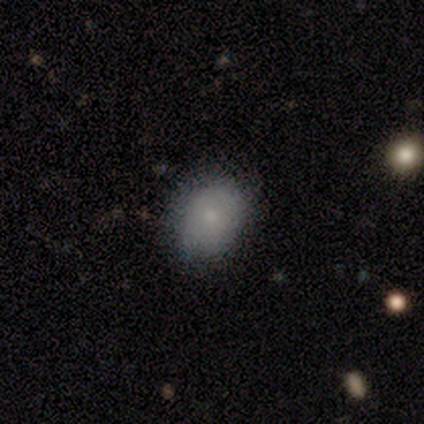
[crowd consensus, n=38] Smooth or featured? 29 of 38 (76%) said smooth. How rounded? 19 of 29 (66%) said in between. Merging? 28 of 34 (82%) said none.